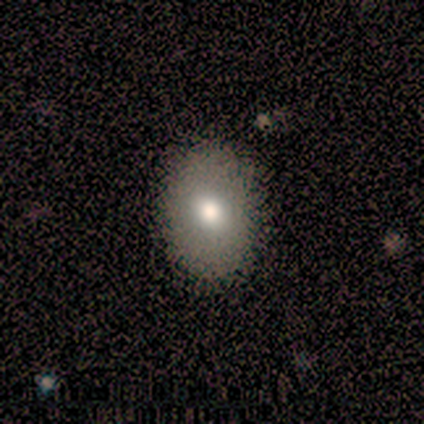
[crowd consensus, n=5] Smooth or featured? smooth (80%)
How rounded? round (50%, tied with in between)
Merging? none (100%)